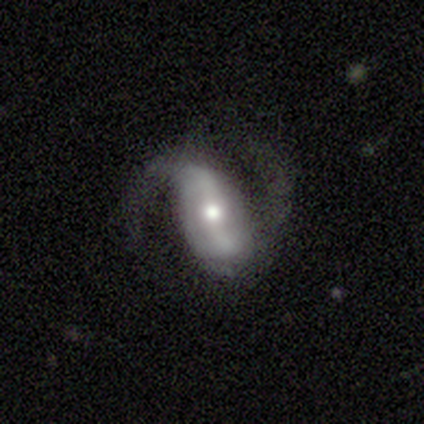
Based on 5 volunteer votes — Smooth or featured: featured or disk — 60% (smooth — 20%)
Edge-on disk: no — 100%
Bar: weak — 67% (strong — 33%)
Spiral arms: yes — 100%
Spiral winding: medium — 67% (tight — 33%)
Spiral arm count: 2 — 100%
Bulge size: moderate — 67% (small — 33%)
Merging: minor disturbance — 75% (major disturbance — 25%)